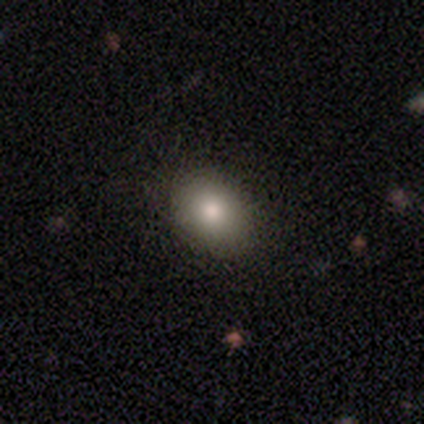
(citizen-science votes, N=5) Smooth or featured?
  - smooth: 100% *
  - featured or disk: 0%
  - star or artifact: 0%
How rounded?
  - round: 60% *
  - in between: 40%
  - cigar-shaped: 0%
Merging?
  - none: 80% *
  - minor disturbance: 20%
  - major disturbance: 0%
  - merger: 0%